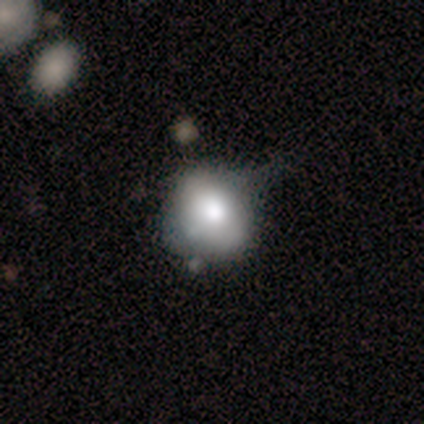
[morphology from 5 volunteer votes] Q: Smooth or featured?
A: smooth (60%); runner-up: featured or disk (20%)
Q: How rounded?
A: round (100%)
Q: Merging?
A: none (50%); tied with: minor disturbance (50%)